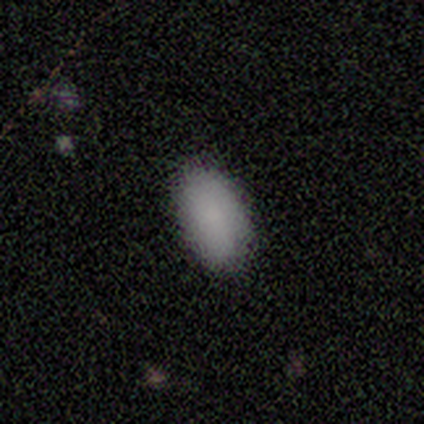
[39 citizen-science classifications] smooth-or-featured: smooth: 74% | star or artifact: 18% | featured or disk: 8%
  how-rounded: in between: 97% | round: 3% | cigar-shaped: 0%
  merging: none: 75% | minor disturbance: 19% | major disturbance: 3% | merger: 3%